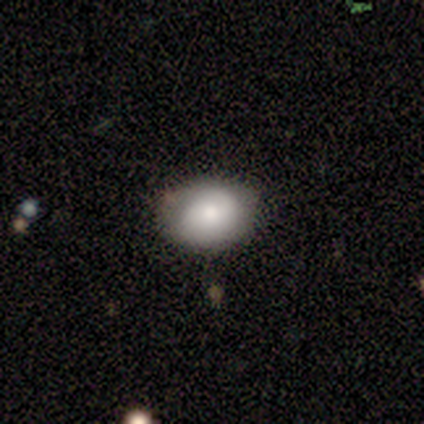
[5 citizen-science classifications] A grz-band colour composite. It shows a smooth galaxy with no disk features (40%, tied with featured or disk) that is in between round and cigar-shaped (100%). Merging: none (100%).